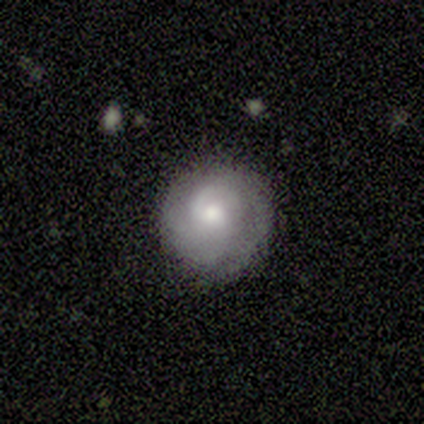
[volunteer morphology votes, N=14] Overall: featured or disk (64%; smooth 36%). Edge-on disk: no (100%). Bar: no (67%). Spiral arms: yes (89%). Spiral arm count: 2 (38%, tied with can't tell). Spiral winding: tight (100%). Bulge size: moderate (78%). Merging: none (86%).